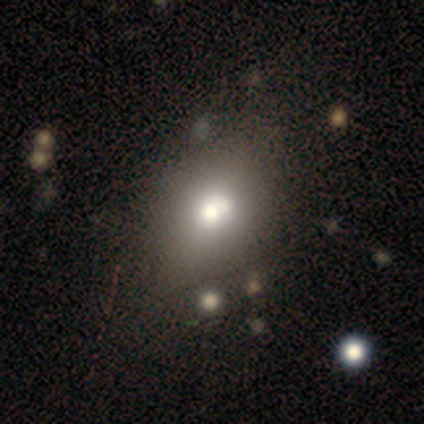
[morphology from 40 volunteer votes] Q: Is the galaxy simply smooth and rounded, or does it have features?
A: smooth — 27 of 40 (68%).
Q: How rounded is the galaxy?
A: in between — 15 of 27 (56%).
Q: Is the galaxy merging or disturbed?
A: none — 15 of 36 (42%).